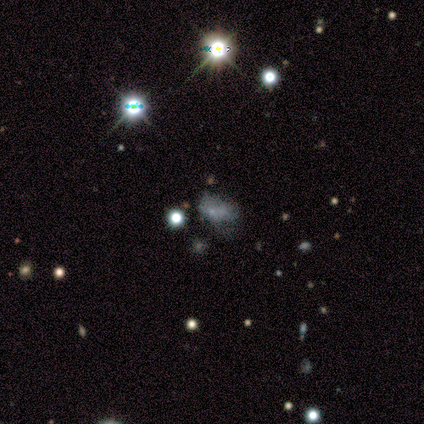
A star or artifact, not a galaxy (80%).